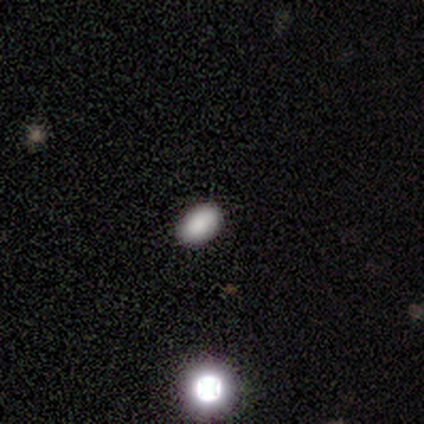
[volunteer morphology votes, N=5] Consensus on every question: smooth or featured — smooth (100%); how rounded — in between (100%); merging — none (100%).